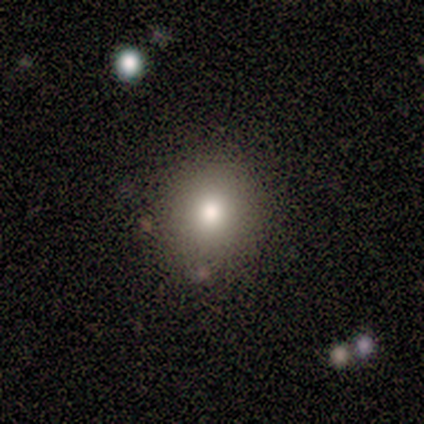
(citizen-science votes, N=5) smooth 80%, featured or disk 20%, star or artifact 0%. Down the decision tree: how rounded — round (100%); merging — none (80%).